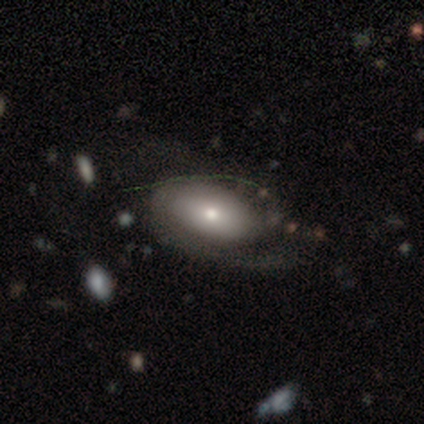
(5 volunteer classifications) smooth-or-featured: smooth: 80% | featured or disk: 20% | star or artifact: 0%
  how-rounded: in between: 100% | round: 0% | cigar-shaped: 0%
  merging: major disturbance: 60% | none: 40% | minor disturbance: 0% | merger: 0%